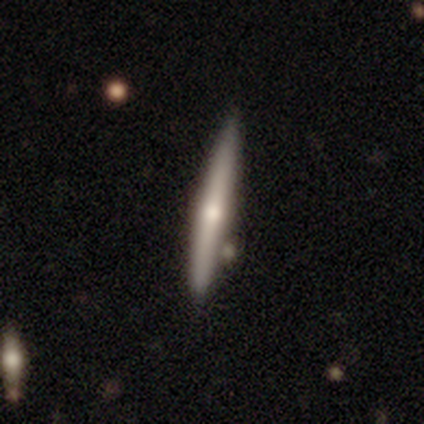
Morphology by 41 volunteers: smooth-or-featured: featured or disk: 66% | smooth: 34% | star or artifact: 0%
  disk-edge-on: yes: 100% | no: 0%
    edge-on-bulge: rounded: 85% | none: 15% | boxy: 0%
  merging: none: 56% | minor disturbance: 10% | merger: 7% | major disturbance: 2%